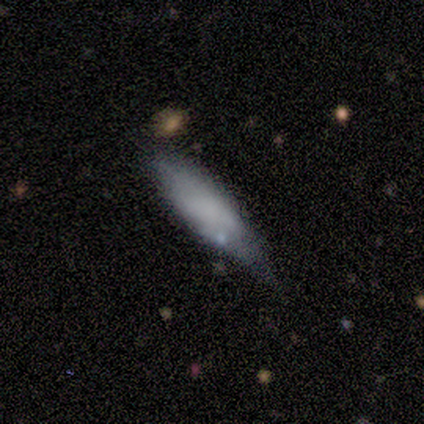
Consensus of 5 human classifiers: This is likely a smooth galaxy (60%). How rounded: likely in between (67%). Merging: marginally none (40%, tied with minor disturbance).